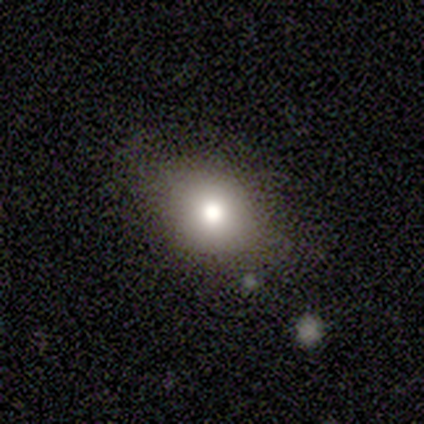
Smooth or featured: smooth — 69% (star or artifact — 23%)
How rounded: round — 56% (in between — 44%)
Merging: none — 60% (minor disturbance — 30%)